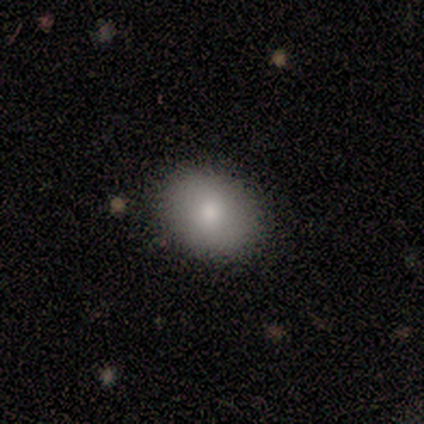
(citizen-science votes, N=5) Smooth or featured? 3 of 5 (60%) said smooth. How rounded? 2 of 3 (67%) said in between. Merging? 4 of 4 (100%) said none.